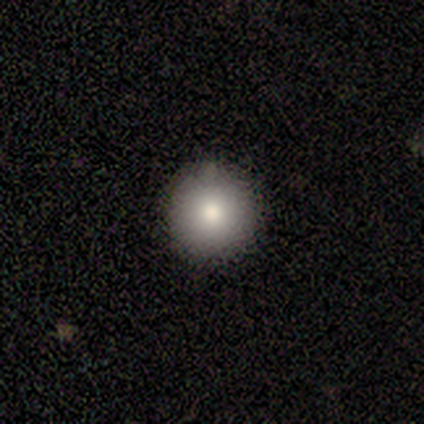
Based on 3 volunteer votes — This is clearly a smooth galaxy (100%). How rounded: clearly round (100%). Merging: clearly none (100%).